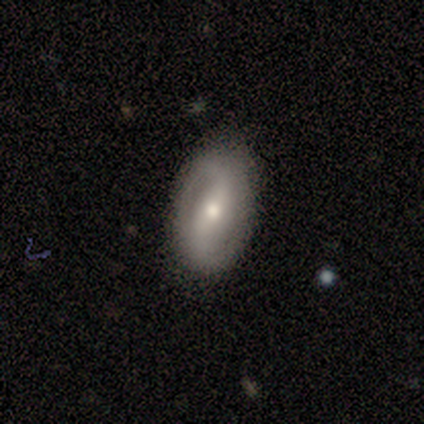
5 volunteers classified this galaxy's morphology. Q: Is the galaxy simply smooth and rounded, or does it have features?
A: featured or disk — 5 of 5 (100%).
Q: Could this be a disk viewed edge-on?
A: no — 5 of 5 (100%).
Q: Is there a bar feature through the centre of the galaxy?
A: strong — 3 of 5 (60%).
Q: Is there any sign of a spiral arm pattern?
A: yes — 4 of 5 (80%).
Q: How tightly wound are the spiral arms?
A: medium — 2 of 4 (50%).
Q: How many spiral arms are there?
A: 2 — 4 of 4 (100%).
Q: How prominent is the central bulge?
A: moderate — 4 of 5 (80%).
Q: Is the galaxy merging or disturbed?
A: none — 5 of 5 (100%).